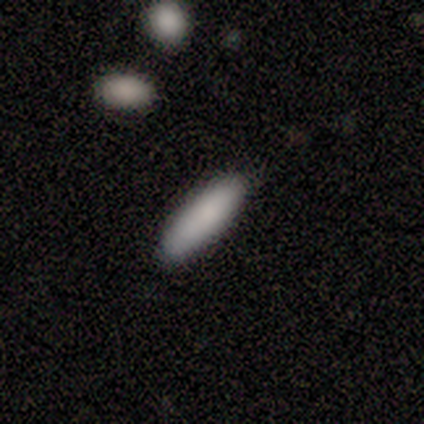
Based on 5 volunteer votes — Morphology: type=smooth (100%); roundness=cigar-shaped (80%); merging=none (60%).